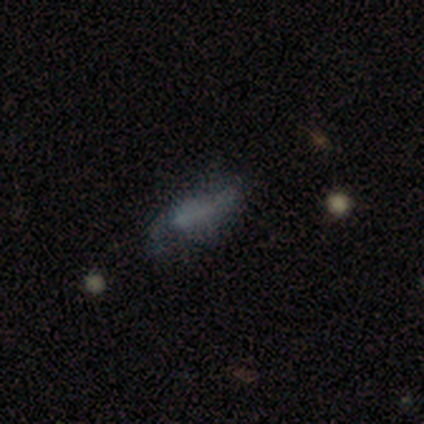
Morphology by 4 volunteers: Overall: smooth (50%; featured or disk 25%). How rounded: in between (50%, tied with cigar-shaped). Merging: none (33%, tied with minor disturbance and major disturbance).